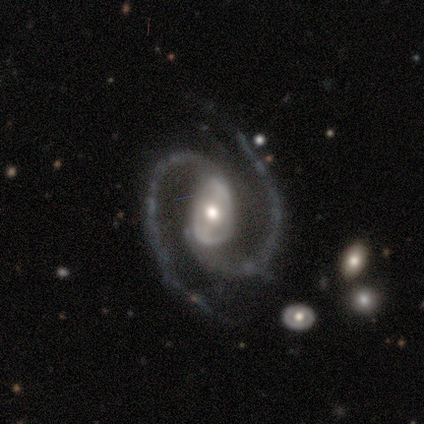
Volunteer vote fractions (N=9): featured or disk 89%, star or artifact 11%, smooth 0%. Down the decision tree: edge-on disk — no (100%); bar — strong (50%, tied with no); spiral arms — yes (100%); spiral arm count — 2 (88%); spiral winding — medium (62%); bulge size — moderate (62%); merging — none (50%).